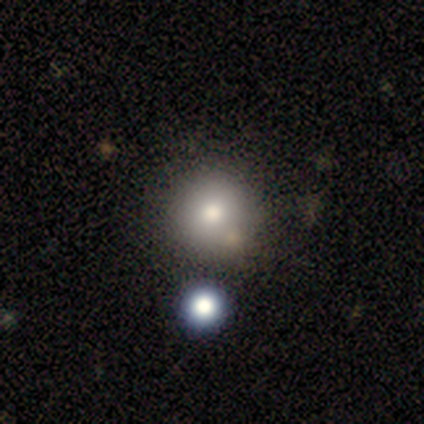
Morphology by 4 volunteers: This is clearly a smooth galaxy (100%). How rounded: likely round (75%). Merging: likely none (75%).